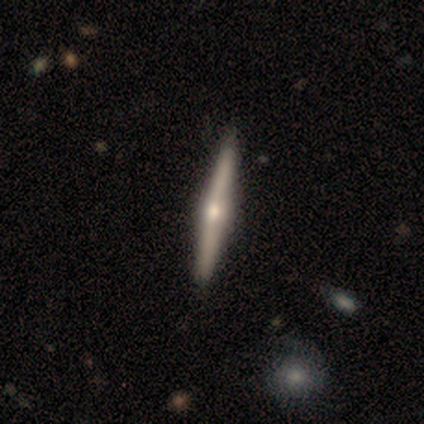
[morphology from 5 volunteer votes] Smooth or featured: featured or disk — 80% (smooth — 20%)
Edge-on disk: yes — 100%
Edge-on bulge: rounded — 100%
Merging: none — 80% (minor disturbance — 20%)